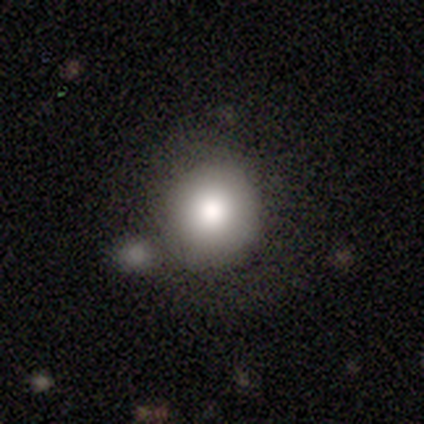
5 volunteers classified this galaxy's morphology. A smooth galaxy with no disk features (40%, tied with star or artifact) that is round (100%).

Vote fractions:
- Smooth or featured? smooth: 40% (tied) / star or artifact: 40% (tied) / featured or disk: 20%
- How rounded? round: 100% / in between: 0% / cigar-shaped: 0%
- Merging? none: 67% / merger: 33% / minor disturbance: 0% / major disturbance: 0%